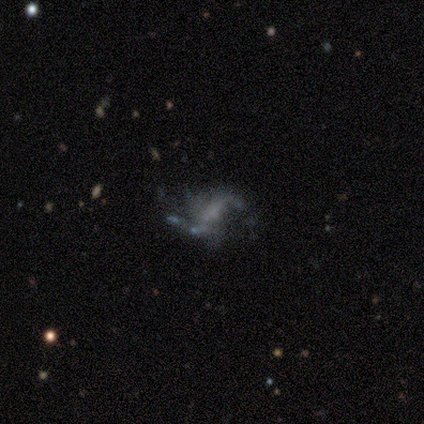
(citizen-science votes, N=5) This appears to be a featured or disk galaxy (80%) with a weak bar (50%), 2 (75%) loose (75%) spiral arms (100%) and a large central bulge (25%, tied with moderate, small and none). Merging: none (100%).